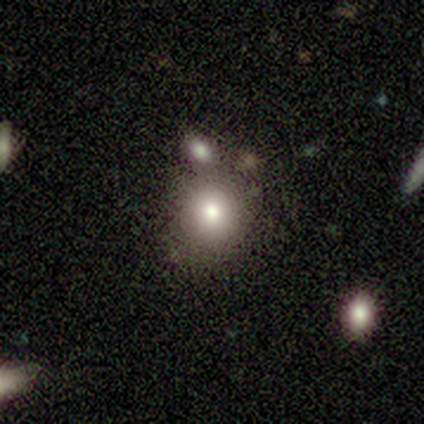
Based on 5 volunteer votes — Q: Smooth or featured?
A: smooth (40%); tied with: featured or disk (40%)
Q: How rounded?
A: round (100%)
Q: Merging?
A: merger (50%); runner-up: none (25%)